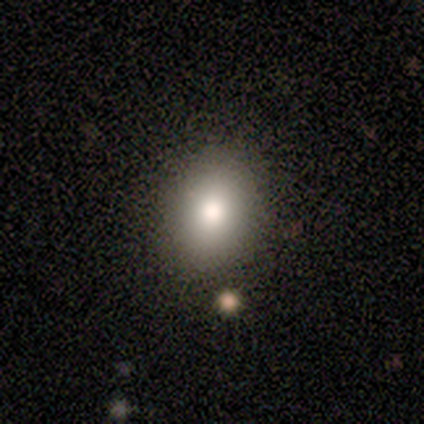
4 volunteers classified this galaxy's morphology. A smooth galaxy with no disk features (100%) that is round (50%, tied with in between).

Vote fractions:
- Smooth or featured? smooth: 100% / featured or disk: 0% / star or artifact: 0%
- How rounded? round: 50% (tied) / in between: 50% (tied) / cigar-shaped: 0%
- Merging? none: 100% / minor disturbance: 0% / major disturbance: 0% / merger: 0%